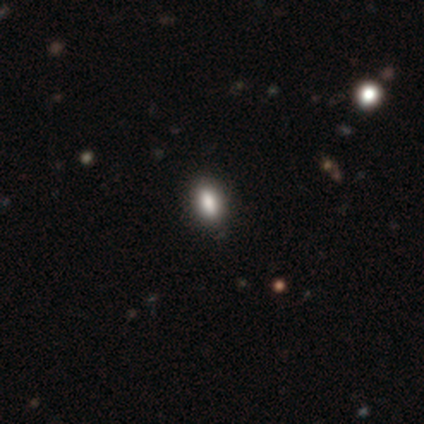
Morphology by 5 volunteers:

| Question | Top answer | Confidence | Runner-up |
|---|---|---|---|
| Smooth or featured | smooth | 100% | — |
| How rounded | in between | 80% | cigar-shaped (20%) |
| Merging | none | 100% | — |